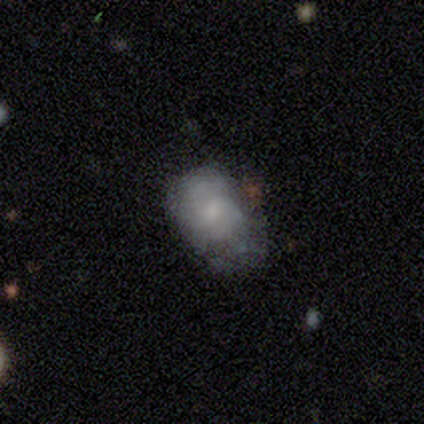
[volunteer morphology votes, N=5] smooth_or_featured: featured or disk (p=0.60) [alt: smooth p=0.40]
disk_edge_on: no (p=1.00)
bar: no (p=0.67) [alt: weak p=0.33]
has_spiral_arms: no (p=1.00)
bulge_size: small (p=0.67) [alt: none p=0.33]
merging: major disturbance (p=0.60) [alt: none p=0.20]